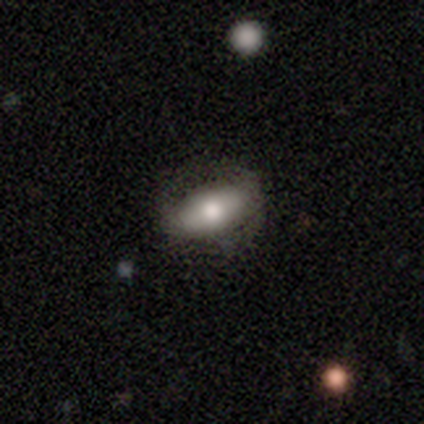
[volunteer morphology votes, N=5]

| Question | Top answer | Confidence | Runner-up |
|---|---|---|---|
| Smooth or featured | smooth | 40% | tied: featured or disk (40%) |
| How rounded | in between | 100% | — |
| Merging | none | 75% | minor disturbance (25%) |